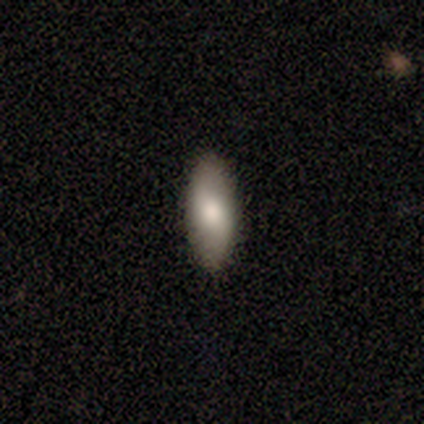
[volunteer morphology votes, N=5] Smooth or featured? smooth (100%)
How rounded? in between (60%)
Merging? none (100%)